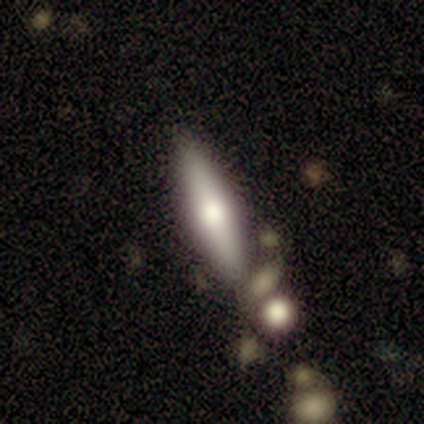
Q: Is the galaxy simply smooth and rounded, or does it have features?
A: featured or disk — 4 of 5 (80%).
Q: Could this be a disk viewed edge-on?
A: yes — 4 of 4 (100%).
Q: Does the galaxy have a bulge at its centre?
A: rounded — 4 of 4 (100%).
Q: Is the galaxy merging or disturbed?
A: none — 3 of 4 (75%).